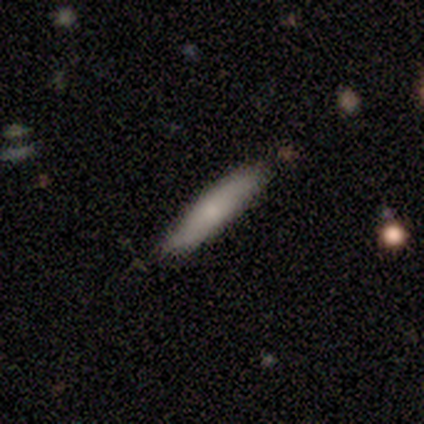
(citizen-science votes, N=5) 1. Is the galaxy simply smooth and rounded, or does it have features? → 40% smooth (tied), 40% featured or disk (tied), 20% star or artifact.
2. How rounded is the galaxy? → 100% cigar-shaped, 0% round, 0% in between.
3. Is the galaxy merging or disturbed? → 100% none, 0% minor disturbance, 0% major disturbance, 0% merger.